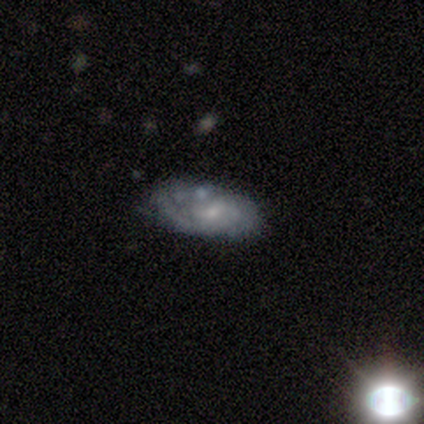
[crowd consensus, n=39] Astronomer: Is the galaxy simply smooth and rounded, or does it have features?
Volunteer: featured or disk — 67%.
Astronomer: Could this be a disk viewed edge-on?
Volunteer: no — 96%.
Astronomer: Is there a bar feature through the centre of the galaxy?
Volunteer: no — 80%.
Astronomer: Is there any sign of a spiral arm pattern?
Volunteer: yes — 64%.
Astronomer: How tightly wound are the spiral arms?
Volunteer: tight — 75%.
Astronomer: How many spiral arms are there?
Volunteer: can't tell — 62%.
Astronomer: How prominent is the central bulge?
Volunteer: small — 64%.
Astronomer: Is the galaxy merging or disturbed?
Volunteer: none — 71%.